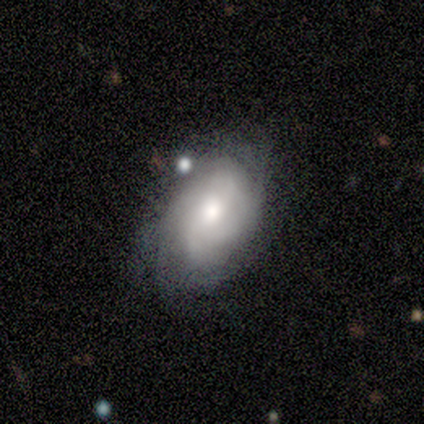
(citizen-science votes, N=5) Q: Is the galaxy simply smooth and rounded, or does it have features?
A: smooth — 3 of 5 (60%).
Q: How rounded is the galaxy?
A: in between — 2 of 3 (67%).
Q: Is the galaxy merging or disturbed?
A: minor disturbance — 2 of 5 (40%, tied with major disturbance).